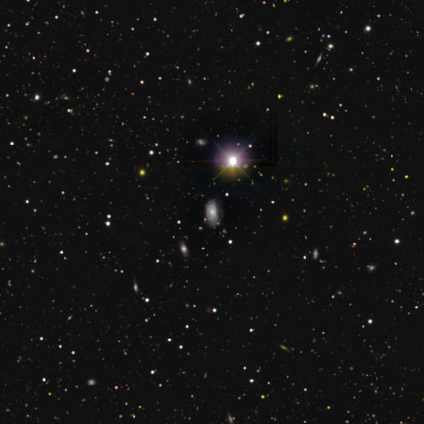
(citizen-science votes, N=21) smooth_or_featured: star or artifact (p=0.52) [alt: smooth p=0.24]